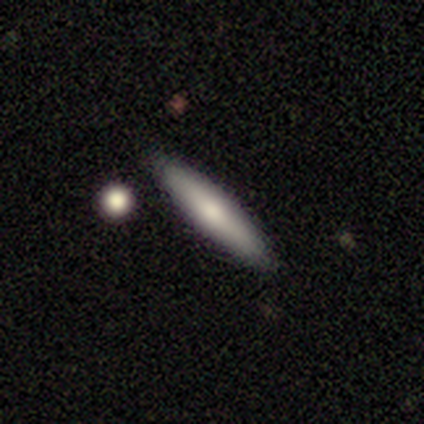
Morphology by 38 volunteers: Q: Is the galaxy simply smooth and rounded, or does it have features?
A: smooth — 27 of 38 (71%).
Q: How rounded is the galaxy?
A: cigar-shaped — 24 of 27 (89%).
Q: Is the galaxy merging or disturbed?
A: none — 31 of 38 (82%).